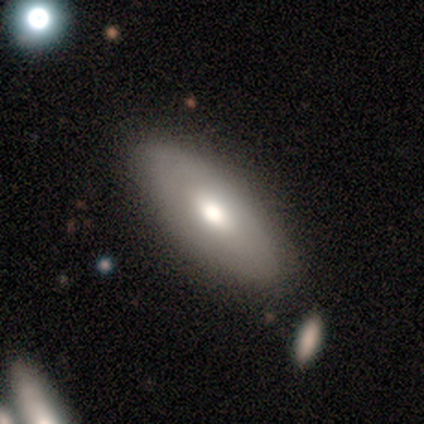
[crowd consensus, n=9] smooth-or-featured: smooth: 56% | featured or disk: 33% | star or artifact: 11%
  how-rounded: cigar-shaped: 60% | in between: 40% | round: 0%
  merging: none: 100% | minor disturbance: 0% | major disturbance: 0% | merger: 0%